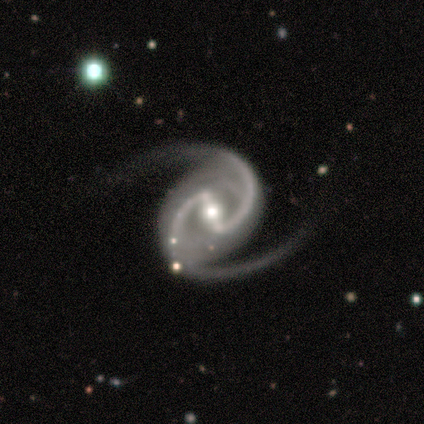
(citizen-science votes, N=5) This is clearly a featured or disk galaxy (100%). It is clearly not viewed edge-on (100%). Bar: likely strong (60%). Spiral arm pattern: clearly yes (100%). Spiral arm count: clearly 2 (100%). Spiral winding: clearly medium (80%). Central bulge: clearly moderate (100%). Merging: clearly none (80%).